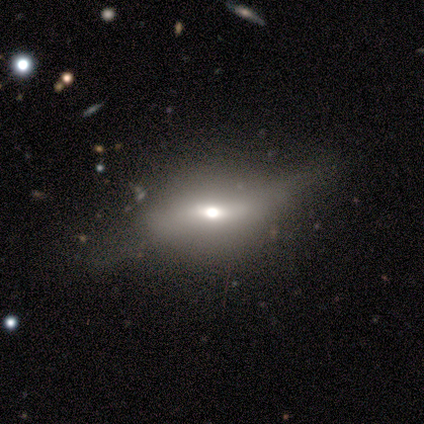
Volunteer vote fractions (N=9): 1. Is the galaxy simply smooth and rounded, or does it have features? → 67% featured or disk, 22% smooth, 11% star or artifact.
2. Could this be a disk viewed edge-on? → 50% yes (tied), 50% no (tied).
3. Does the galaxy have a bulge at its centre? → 100% rounded, 0% boxy, 0% none.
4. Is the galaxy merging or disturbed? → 62% none, 25% major disturbance, 12% minor disturbance, 0% merger.